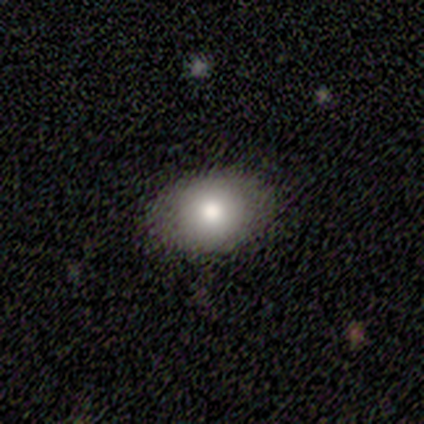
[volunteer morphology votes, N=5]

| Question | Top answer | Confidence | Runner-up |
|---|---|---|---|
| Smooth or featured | smooth | 60% | featured or disk (20%) |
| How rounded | in between | 67% | round (33%) |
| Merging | none | 75% | minor disturbance (25%) |